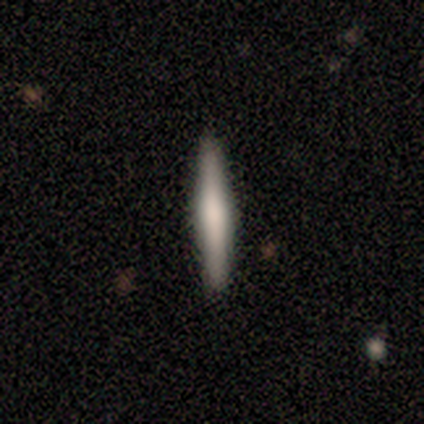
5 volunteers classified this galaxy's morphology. A featured or disk galaxy (60%) viewed edge-on (100%) with no central bulge (100%). Merging: none (80%).